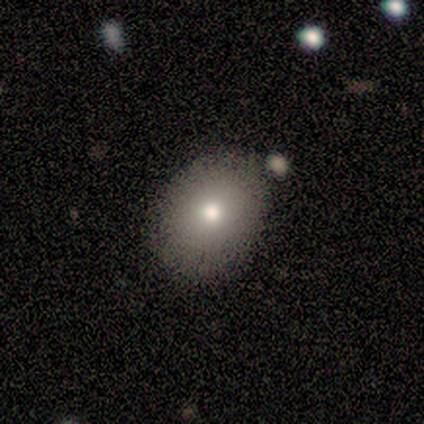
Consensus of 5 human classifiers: A smooth galaxy with no disk features (80%) that is round (50%, tied with in between).

Vote fractions:
- Smooth or featured? smooth: 80% / featured or disk: 20% / star or artifact: 0%
- How rounded? round: 50% (tied) / in between: 50% (tied) / cigar-shaped: 0%
- Merging? none: 80% / minor disturbance: 20% / major disturbance: 0% / merger: 0%